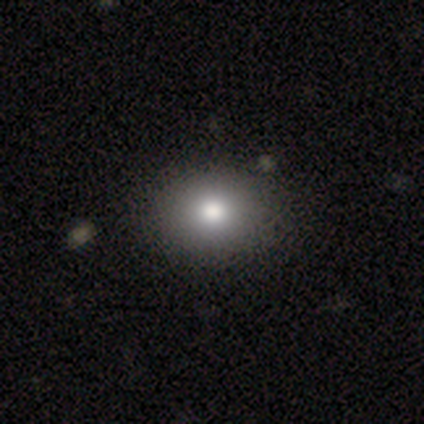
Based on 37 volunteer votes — Smooth or featured? smooth (73%)
How rounded? round (56%)
Merging? none (88%)